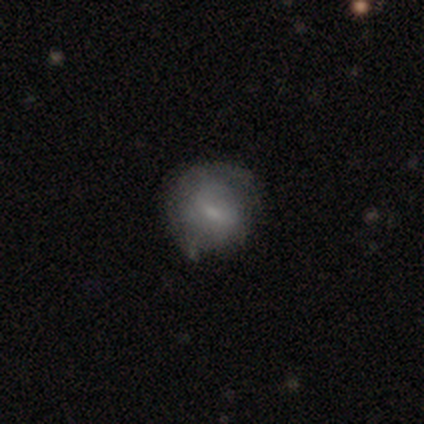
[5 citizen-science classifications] Morphology: type=featured or disk (60%); edge-on=no (100%); bar=strong (33%, tied with weak and no); spiral arms=no (67%); bulge=moderate (33%, tied with small and none); merging=none (50%).